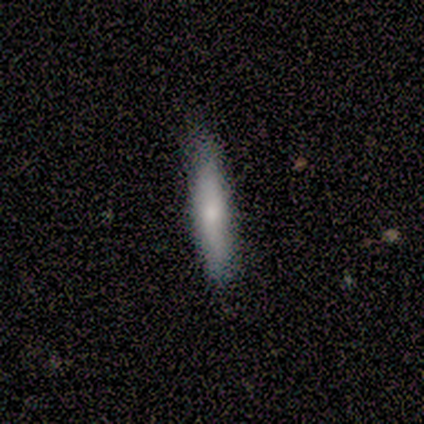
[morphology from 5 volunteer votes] Smooth or featured? smooth (40%, tied with star or artifact)
How rounded? cigar-shaped (100%)
Merging? none (100%)